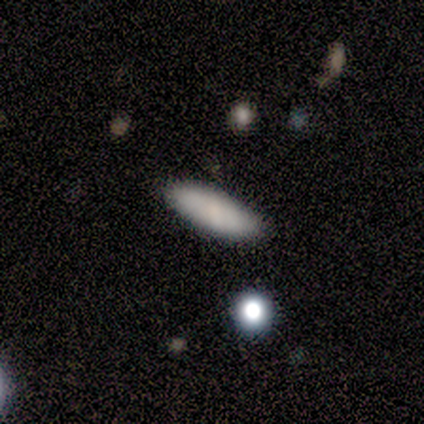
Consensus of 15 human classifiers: smooth 87%, featured or disk 7%, star or artifact 7%. Down the decision tree: how rounded — in between (77%); merging — none (86%).